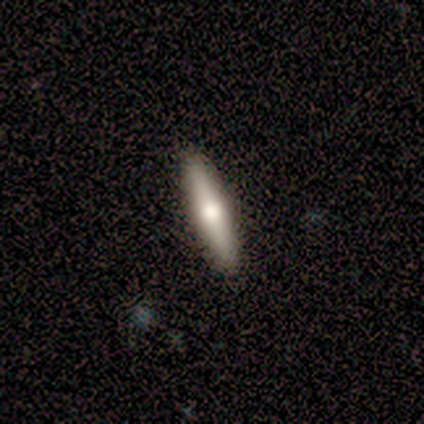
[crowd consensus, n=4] A smooth galaxy with no disk features (50%) that is cigar-shaped (100%). Merging: none (100%).